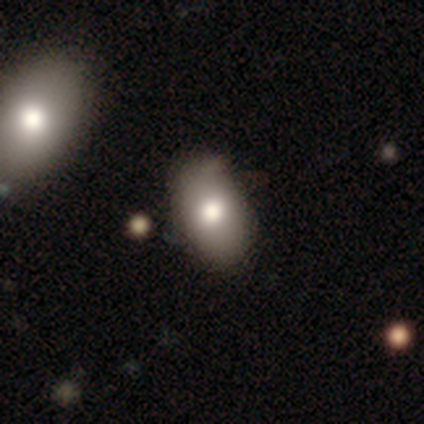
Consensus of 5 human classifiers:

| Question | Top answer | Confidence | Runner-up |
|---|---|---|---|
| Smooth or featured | smooth | 100% | — |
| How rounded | in between | 100% | — |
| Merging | none | 100% | — |